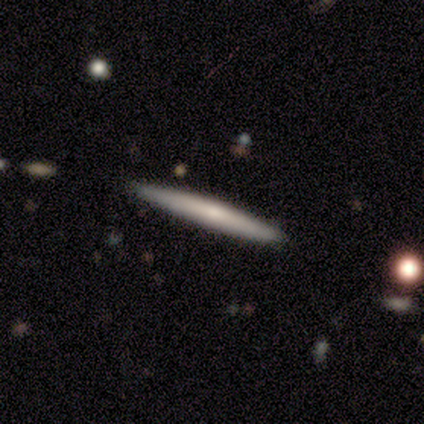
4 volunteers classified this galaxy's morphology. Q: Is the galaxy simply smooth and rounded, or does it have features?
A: smooth — 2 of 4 (50%, tied with featured or disk).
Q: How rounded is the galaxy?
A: cigar-shaped — 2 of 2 (100%).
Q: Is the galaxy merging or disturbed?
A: none — 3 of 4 (75%).